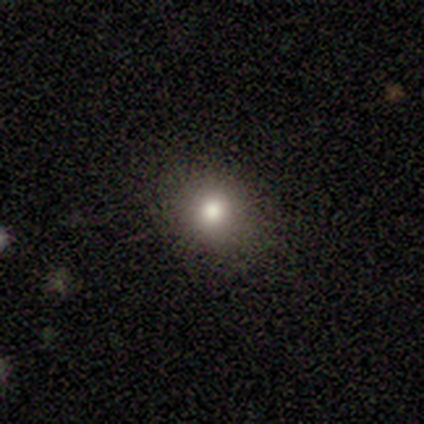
A smooth galaxy with no disk features (80%) that is round (100%). Merging: none (80%).